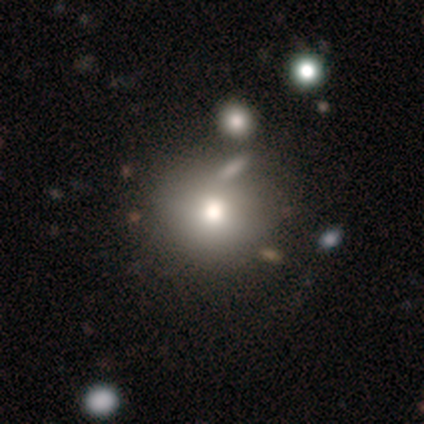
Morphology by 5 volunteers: Smooth or featured? 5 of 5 (100%) said smooth. How rounded? 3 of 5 (60%) said round. Merging? 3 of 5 (60%) said none.